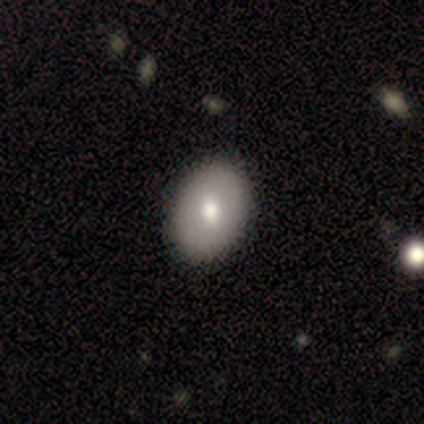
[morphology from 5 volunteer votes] Smooth or featured? smooth (60%)
How rounded? in between (67%)
Merging? none (100%)